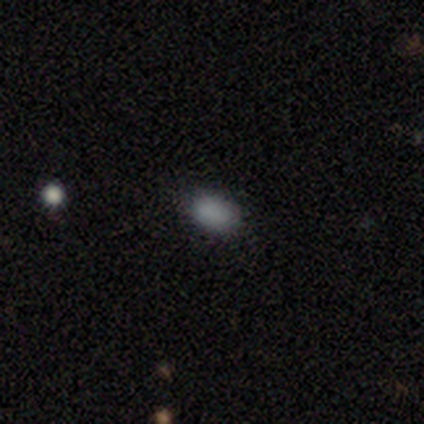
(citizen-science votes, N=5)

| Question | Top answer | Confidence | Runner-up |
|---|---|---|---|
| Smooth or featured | smooth | 80% | star or artifact (20%) |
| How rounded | in between | 100% | — |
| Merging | none | 75% | minor disturbance (25%) |